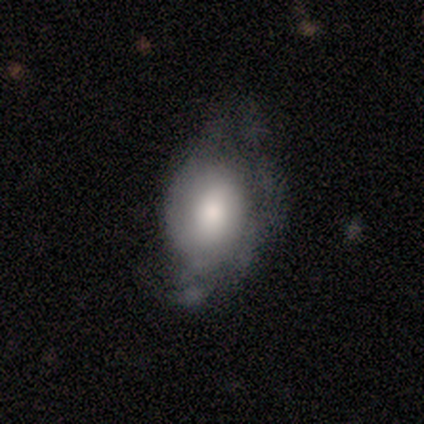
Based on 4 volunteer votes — A featured or disk galaxy (50%) with no bar (100%), tight (100%) spiral arms (50%, tied with no) and a large central bulge (50%, tied with moderate).

Vote fractions:
- Smooth or featured? featured or disk: 50% / smooth: 25% / star or artifact: 25%
- Edge-on disk? no: 100% / yes: 0%
- Bar? no: 100% / strong: 0% / weak: 0%
- Spiral arms? yes: 50% (tied) / no: 50% (tied)
- Spiral winding? tight: 100% / medium: 0% / loose: 0%
- Spiral arm count? can't tell: 100% / 1: 0% / 2: 0% / 3: 0% / 4: 0% / more than 4: 0%
- Bulge size? large: 50% (tied) / moderate: 50% (tied) / dominant: 0% / small: 0% / none: 0%
- Merging? major disturbance: 67% / minor disturbance: 33% / none: 0% / merger: 0%